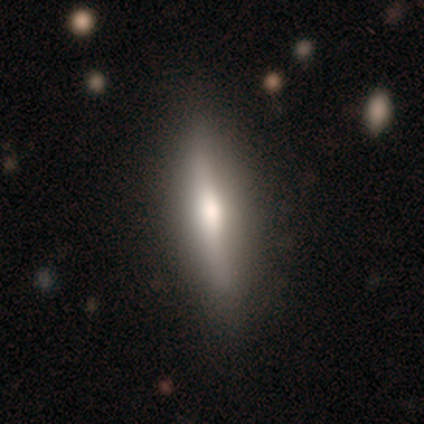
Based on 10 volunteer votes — Smooth or featured: featured or disk — 60% (smooth — 30%)
Edge-on disk: yes — 100%
Edge-on bulge: rounded — 100%
Merging: none — 89% (major disturbance — 11%)